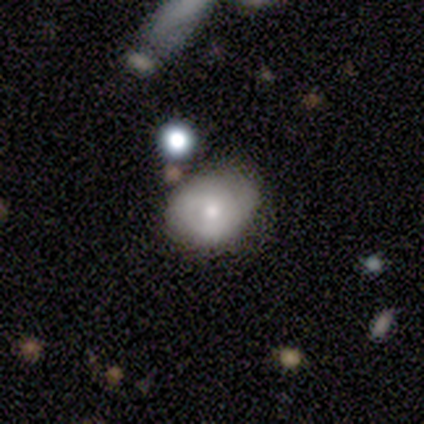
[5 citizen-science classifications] This is clearly a smooth galaxy (100%). How rounded: likely in between (60%). Merging: likely none (60%).